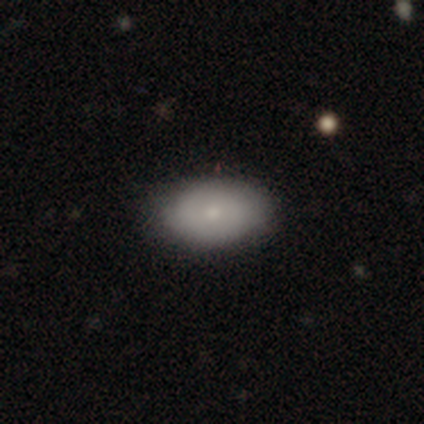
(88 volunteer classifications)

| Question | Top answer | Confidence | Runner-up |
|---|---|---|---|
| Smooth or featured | smooth | 72% | featured or disk (19%) |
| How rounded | in between | 90% | round (8%) |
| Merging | none | 81% | minor disturbance (14%) |